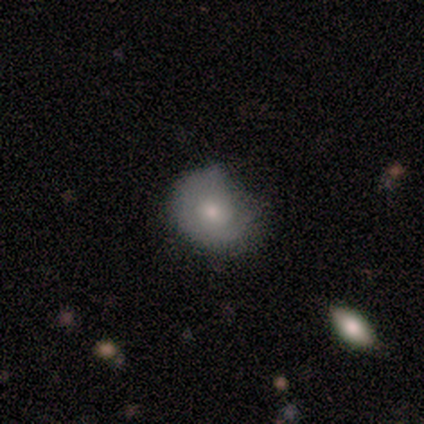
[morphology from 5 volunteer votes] smooth 60%, featured or disk 40%, star or artifact 0%. Down the decision tree: how rounded — in between (67%); merging — none (60%).